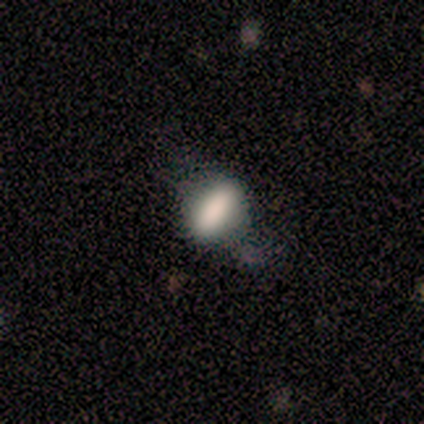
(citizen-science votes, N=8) This appears to be a smooth galaxy with no disk features (62%) that is in between round and cigar-shaped (60%). Merging: minor disturbance (50%).